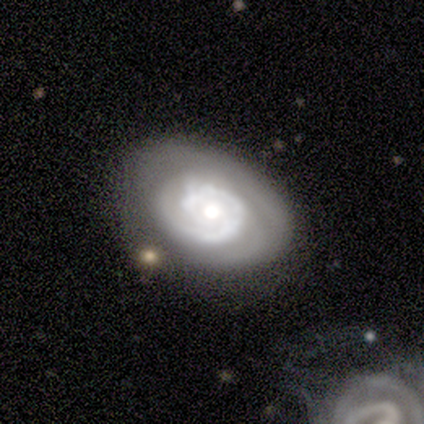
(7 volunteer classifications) This appears to be a featured or disk galaxy (100%) with no bar (100%), 1 (71%) tight (86%) spiral arms (100%) and a dominant central bulge (29%, tied with moderate and small). Merging: none (71%).